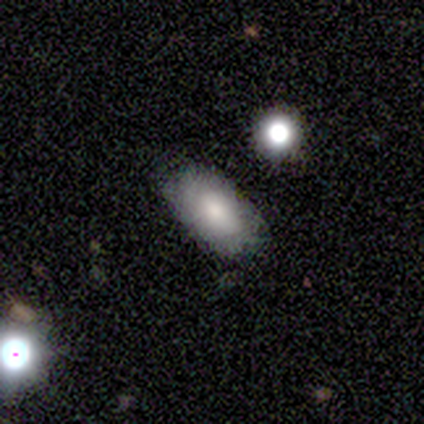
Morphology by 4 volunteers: Smooth or featured? smooth (50%, tied with featured or disk)
How rounded? in between (100%)
Merging? none (75%)